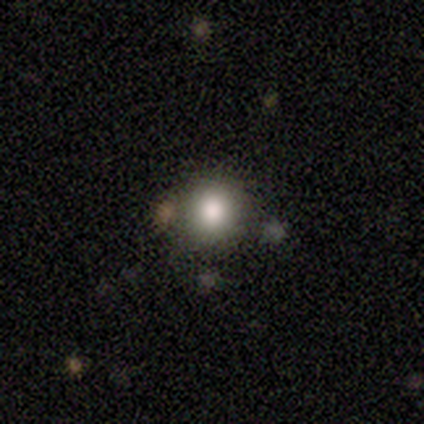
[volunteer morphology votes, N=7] This appears to be a smooth galaxy with no disk features (86%) that is round (100%). Merging: none (100%).